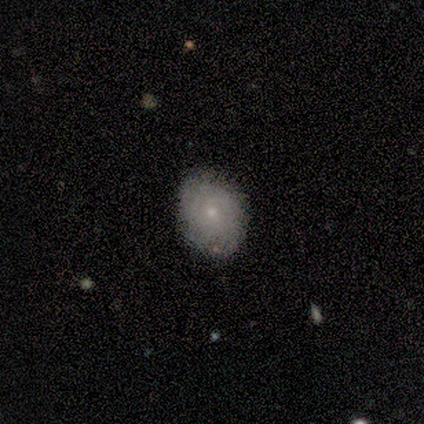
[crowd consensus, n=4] Morphology: type=smooth (75%); roundness=round (100%); merging=none (100%).